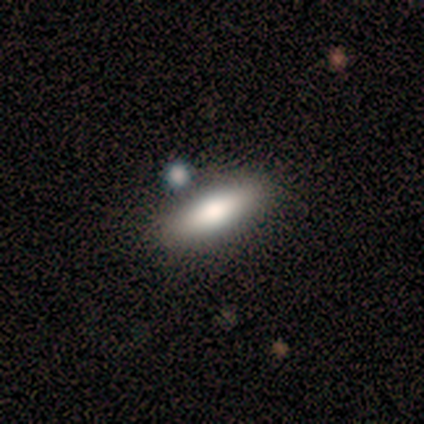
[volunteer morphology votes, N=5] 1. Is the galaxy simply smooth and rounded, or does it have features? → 60% smooth, 20% featured or disk, 20% star or artifact.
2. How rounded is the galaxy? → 67% cigar-shaped, 33% in between, 0% round.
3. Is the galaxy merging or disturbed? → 100% none, 0% minor disturbance, 0% major disturbance, 0% merger.